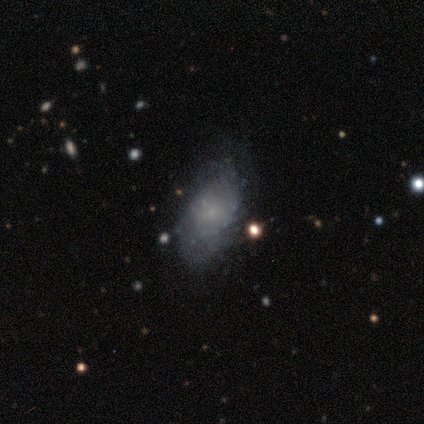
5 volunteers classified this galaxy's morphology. A smooth galaxy with no disk features (60%) that is in between round and cigar-shaped (100%). Merging: none (60%).